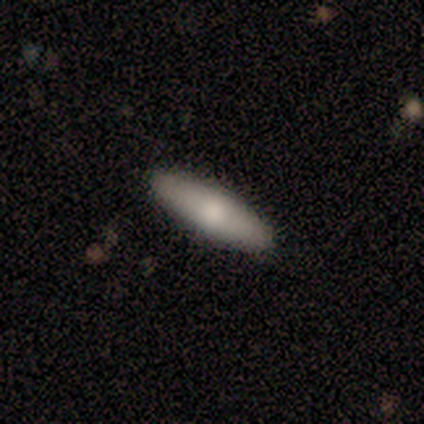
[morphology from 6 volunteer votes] smooth 100%, featured or disk 0%, star or artifact 0%. Down the decision tree: how rounded — cigar-shaped (50%); merging — none (67%).